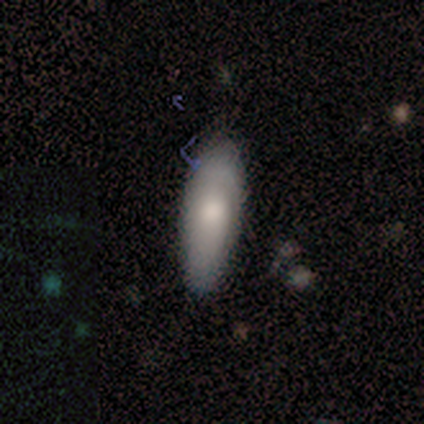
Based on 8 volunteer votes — Morphology: type=smooth (75%); roundness=in between (83%); merging=none (86%).